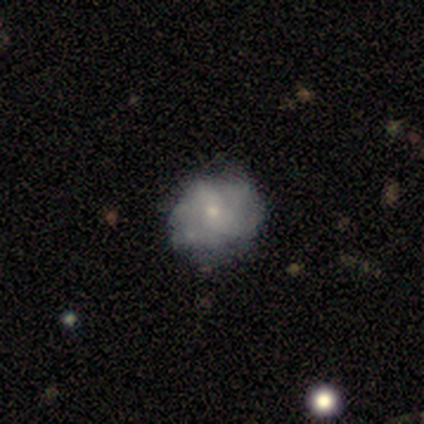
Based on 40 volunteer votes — smooth-or-featured: featured or disk: 70% | smooth: 30% | star or artifact: 0%
  disk-edge-on: no: 100% | yes: 0%
    bar: no: 82% | weak: 18% | strong: 0%
    has-spiral-arms: no: 68% | yes: 32%
    bulge-size: small: 79% | moderate: 18% | none: 4% | dominant: 0% | large: 0%
  merging: none: 50% | minor disturbance: 20% | major disturbance: 5% | merger: 2%